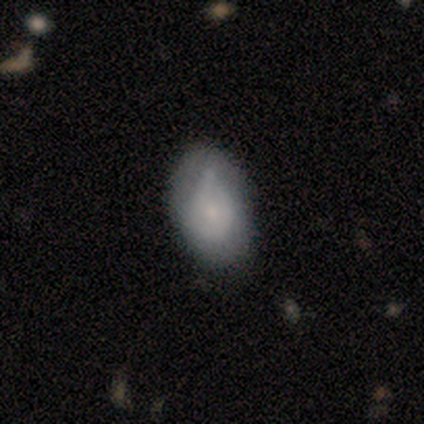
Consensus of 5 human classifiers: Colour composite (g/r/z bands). It shows a featured or disk galaxy (80%) with a weak bar (50%, tied with no), 2 (50%) loose (50%) spiral arms (100%) and a small central bulge (100%). Merging: minor disturbance (60%).